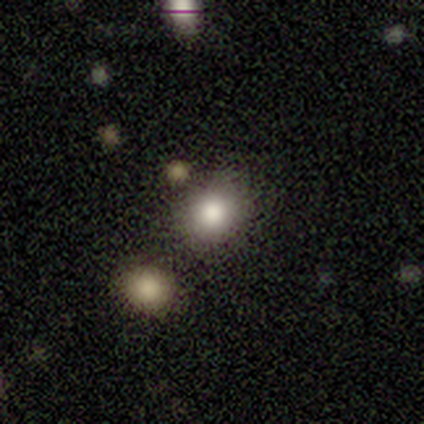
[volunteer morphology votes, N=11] type=smooth (91%); roundness=round (90%); merging=none (70%).